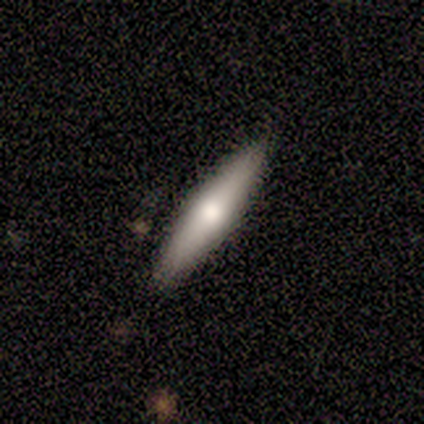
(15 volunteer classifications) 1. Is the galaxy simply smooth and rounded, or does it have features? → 73% smooth, 27% featured or disk, 0% star or artifact.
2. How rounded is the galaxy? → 91% cigar-shaped, 9% in between, 0% round.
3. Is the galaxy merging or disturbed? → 87% none, 7% minor disturbance, 7% major disturbance, 0% merger.